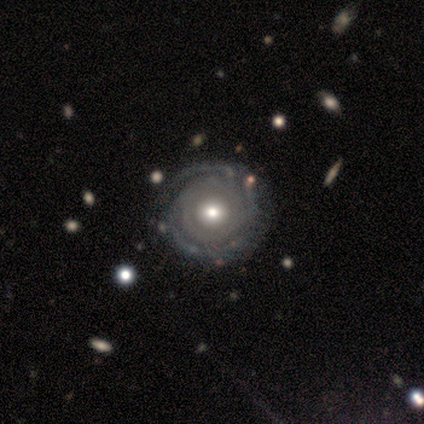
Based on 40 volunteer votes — Smooth or featured: featured or disk — 88% (smooth — 12%)
Edge-on disk: no — 100%
Bar: no — 80% (strong — 11%)
Spiral arms: yes — 91% (no — 9%)
Spiral winding: tight — 94% (medium — 3%)
Spiral arm count: can't tell — 44% (3 — 28%)
Bulge size: moderate — 74% (large — 23%)
Merging: none — 57% (merger — 8%)